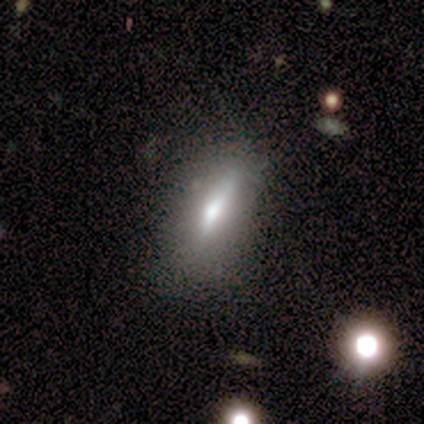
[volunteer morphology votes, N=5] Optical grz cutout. It shows a smooth galaxy with no disk features (80%) that is in between round and cigar-shaped (50%, tied with cigar-shaped). Merging: minor disturbance (60%).